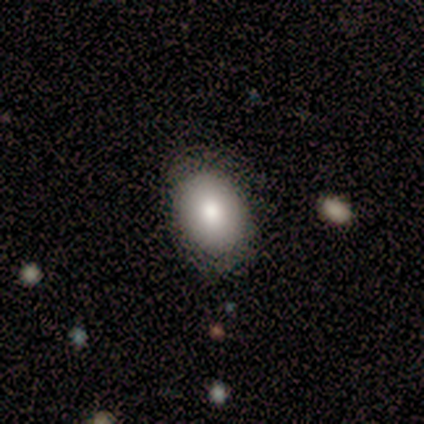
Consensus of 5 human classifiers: smooth 100%, featured or disk 0%, star or artifact 0%. Down the decision tree: how rounded — in between (100%); merging — none (80%).